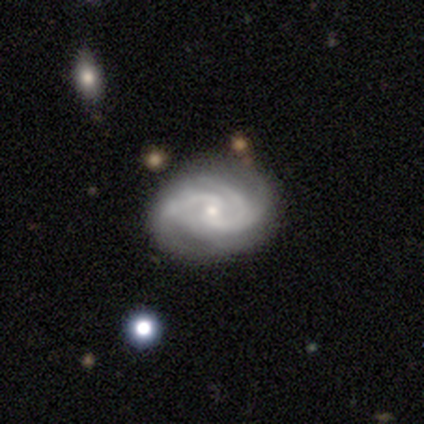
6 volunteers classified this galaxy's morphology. Volunteers were most divided on "spiral arm count" (2-way tie): 2: 40%, 4: 40%, can't tell: 20%, 1: 0%, 3: 0%, more than 4: 0%. More confident: edge-on disk — no (100%); spiral arms — yes (100%); bulge size — small (100%); smooth or featured — featured or disk (83%); merging — minor disturbance (67%); bar — weak (60%); spiral winding — tight (60%).